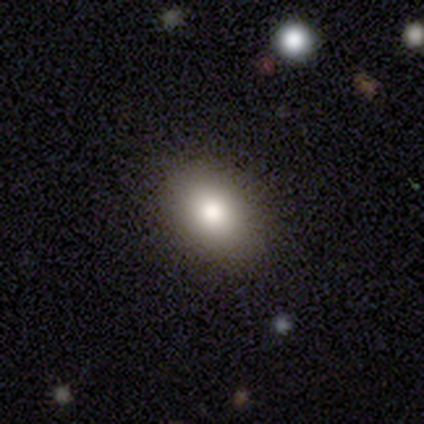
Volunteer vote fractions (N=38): smooth-or-featured: smooth: 79% | featured or disk: 21% | star or artifact: 0%
  how-rounded: in between: 77% | round: 23% | cigar-shaped: 0%
  merging: none: 84% | minor disturbance: 16% | major disturbance: 0% | merger: 0%